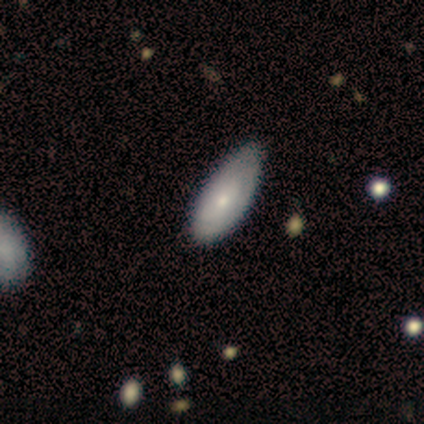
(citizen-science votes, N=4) This appears to be a smooth galaxy with no disk features (50%, tied with featured or disk) that is in between round and cigar-shaped (100%). Merging: none (75%).